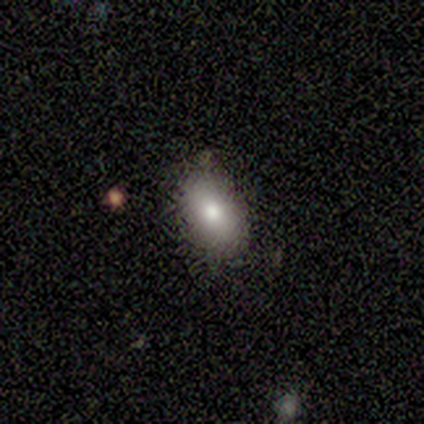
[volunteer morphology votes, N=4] type=smooth (75%); roundness=in between (100%); merging=none (100%).